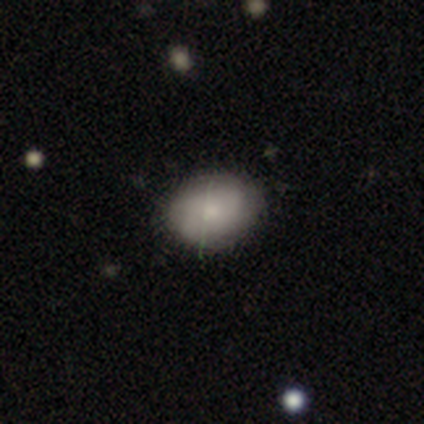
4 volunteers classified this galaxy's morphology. A featured or disk galaxy (50%) with no bar (100%), 2 (100%) medium (100%) spiral arms (50%, tied with no) and a moderate central bulge (50%, tied with small). Merging: none (100%).